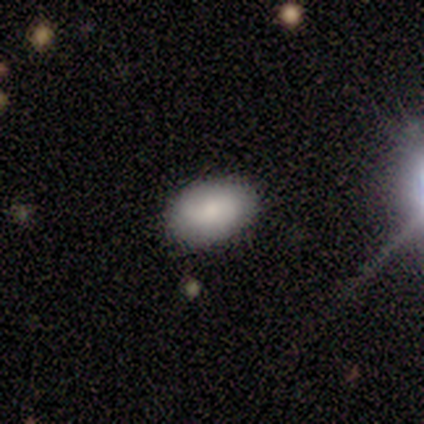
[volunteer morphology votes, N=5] A smooth galaxy with no disk features (40%, tied with star or artifact) that is in between round and cigar-shaped (100%). Merging: none (100%).